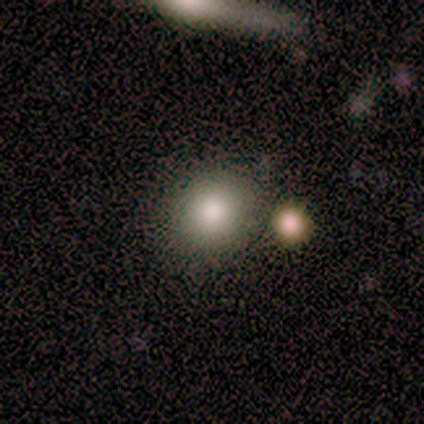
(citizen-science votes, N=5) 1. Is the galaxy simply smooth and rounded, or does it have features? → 100% smooth, 0% featured or disk, 0% star or artifact.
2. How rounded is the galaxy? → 80% round, 20% in between, 0% cigar-shaped.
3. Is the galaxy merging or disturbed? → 100% none, 0% minor disturbance, 0% major disturbance, 0% merger.